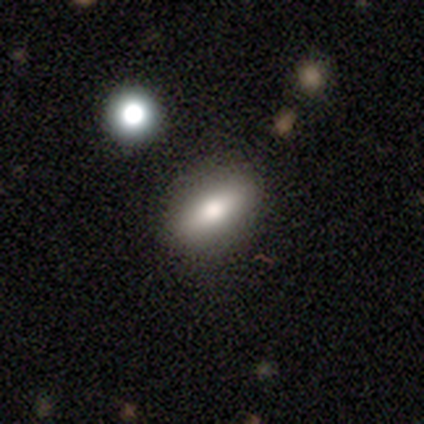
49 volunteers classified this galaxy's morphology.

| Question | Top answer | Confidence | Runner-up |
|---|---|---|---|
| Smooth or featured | smooth | 67% | featured or disk (24%) |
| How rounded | in between | 88% | cigar-shaped (9%) |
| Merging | none | 80% | minor disturbance (16%) |